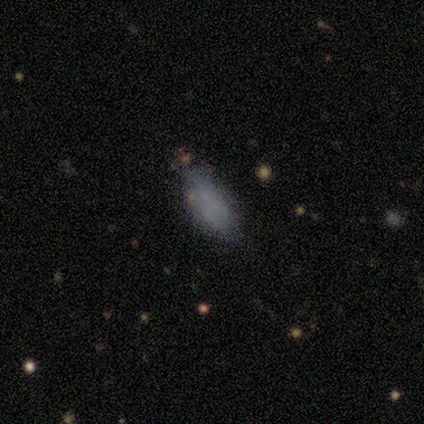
A smooth galaxy with no disk features (72%) that is in between round and cigar-shaped (73%).

Vote fractions:
- Smooth or featured? smooth: 72% / featured or disk: 19% / star or artifact: 8%
- How rounded? in between: 73% / cigar-shaped: 27% / round: 0%
- Merging? none: 82% / minor disturbance: 12% / major disturbance: 6% / merger: 0%